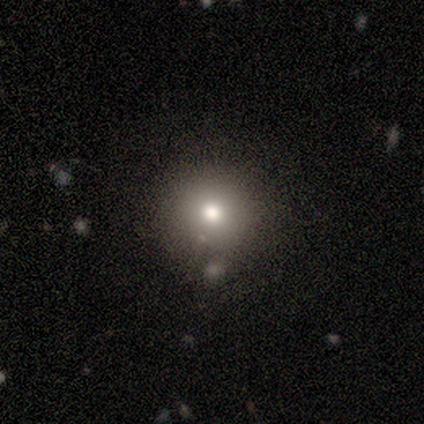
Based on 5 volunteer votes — Smooth or featured? 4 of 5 (80%) said smooth. How rounded? 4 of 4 (100%) said round. Merging? 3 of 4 (75%) said none.